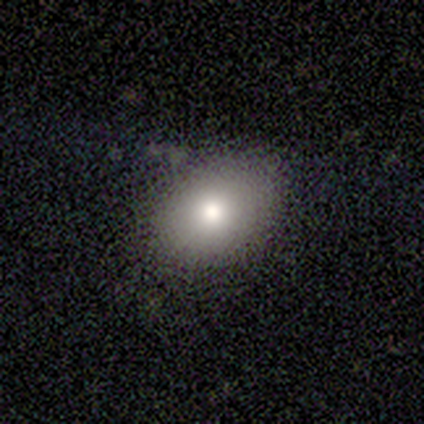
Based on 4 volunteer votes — This appears to be a smooth galaxy with no disk features (100%) that is in between round and cigar-shaped (75%). Merging: none (100%).